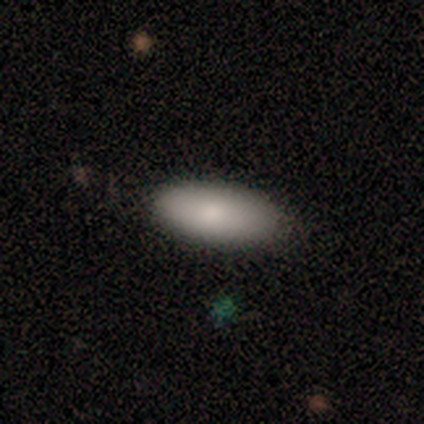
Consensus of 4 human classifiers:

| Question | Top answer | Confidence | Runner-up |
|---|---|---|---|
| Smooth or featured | smooth | 100% | — |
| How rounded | in between | 100% | — |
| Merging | none | 50% | tied: minor disturbance (50%) |